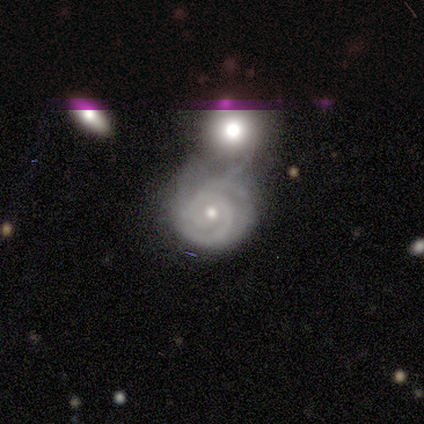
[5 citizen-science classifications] Smooth or featured? 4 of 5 (80%) said featured or disk. Edge-on disk? 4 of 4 (100%) said no. Bar? 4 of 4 (100%) said no. Spiral arms? 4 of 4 (100%) said yes. Spiral winding? 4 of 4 (100%) said tight. Spiral arm count? 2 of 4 (50%) said can't tell. Bulge size? 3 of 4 (75%) said small. Merging? 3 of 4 (75%) said merger.